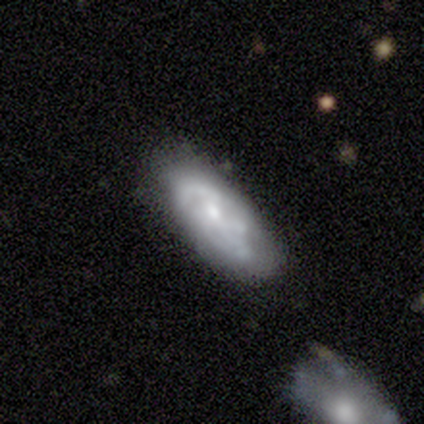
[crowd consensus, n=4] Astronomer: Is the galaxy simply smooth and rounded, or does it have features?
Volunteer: featured or disk — 100%.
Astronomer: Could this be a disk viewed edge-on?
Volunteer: yes — 50%, tied with no at 50%.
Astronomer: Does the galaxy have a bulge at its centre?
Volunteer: none — 50%, tied with rounded at 50%.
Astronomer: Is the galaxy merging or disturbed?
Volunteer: none — 75%.